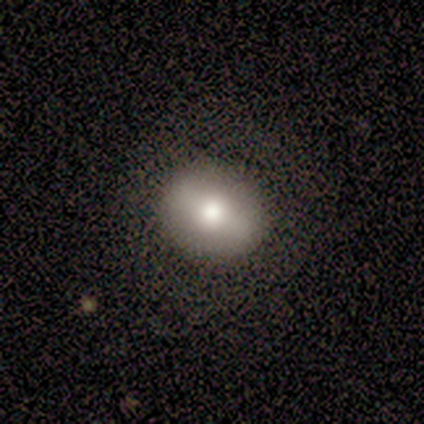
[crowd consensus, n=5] Volunteers were most divided on "smooth or featured": featured or disk: 60%, smooth: 40%, star or artifact: 0%. More confident: edge-on disk — no (100%); bulge size — moderate (100%); merging — none (80%); bar — strong (67%); spiral arms — no (67%).